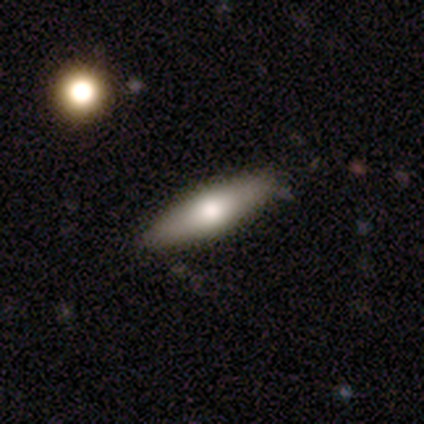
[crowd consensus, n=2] This appears to be a featured or disk galaxy (50%, tied with star or artifact) with a weak bar (100%), no spiral arms (100%) and a moderate central bulge (100%). Merging: none (100%).